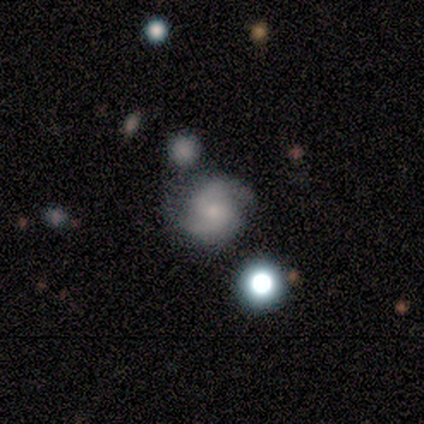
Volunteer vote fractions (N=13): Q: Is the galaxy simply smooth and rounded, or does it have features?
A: featured or disk — 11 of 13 (85%).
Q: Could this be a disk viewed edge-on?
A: no — 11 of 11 (100%).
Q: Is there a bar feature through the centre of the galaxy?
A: no — 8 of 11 (73%).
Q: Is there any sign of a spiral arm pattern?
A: yes — 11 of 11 (100%).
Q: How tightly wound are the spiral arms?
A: medium — 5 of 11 (45%).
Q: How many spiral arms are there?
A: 2 — 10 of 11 (91%).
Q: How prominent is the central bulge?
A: small — 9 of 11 (82%).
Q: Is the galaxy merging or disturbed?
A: none — 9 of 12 (75%).